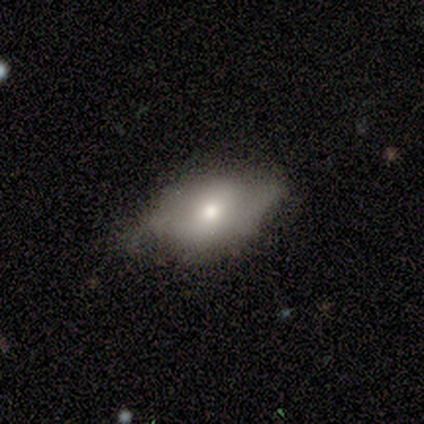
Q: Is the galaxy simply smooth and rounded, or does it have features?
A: featured or disk — 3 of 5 (60%).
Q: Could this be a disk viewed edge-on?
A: no — 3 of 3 (100%).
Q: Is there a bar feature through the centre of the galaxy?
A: weak — 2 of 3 (67%).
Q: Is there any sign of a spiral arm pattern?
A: yes — 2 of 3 (67%).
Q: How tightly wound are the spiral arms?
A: medium — 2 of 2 (100%).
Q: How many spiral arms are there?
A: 2 — 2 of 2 (100%).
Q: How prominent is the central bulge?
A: large — 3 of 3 (100%).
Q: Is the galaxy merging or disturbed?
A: none — 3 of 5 (60%).